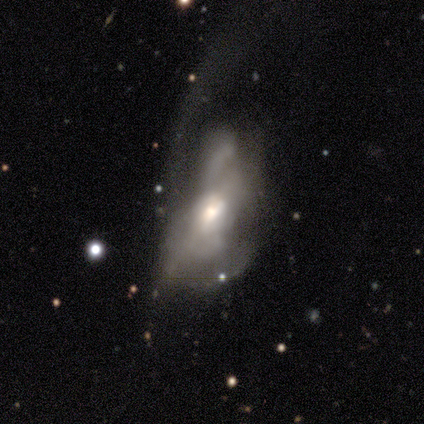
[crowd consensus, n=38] A featured or disk galaxy (66%) with no bar (64%), no spiral arms (77%) and a moderate central bulge (86%). Merging: major disturbance (67%).